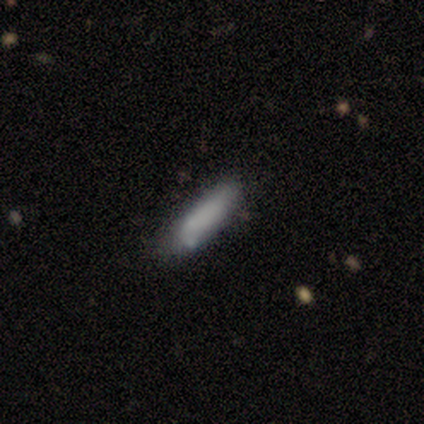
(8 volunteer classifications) Smooth or featured? smooth (75%)
How rounded? cigar-shaped (67%)
Merging? none (50%)